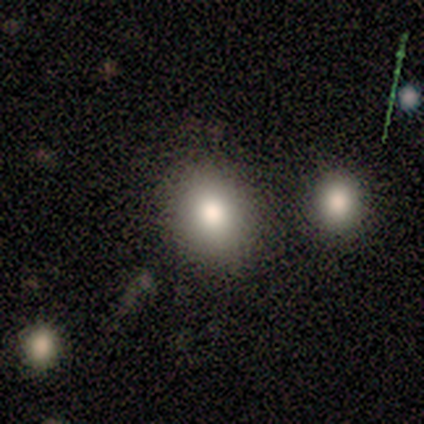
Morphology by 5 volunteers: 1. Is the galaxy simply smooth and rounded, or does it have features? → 80% smooth, 20% star or artifact, 0% featured or disk.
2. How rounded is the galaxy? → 75% in between, 25% round, 0% cigar-shaped.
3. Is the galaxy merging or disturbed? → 75% none, 25% minor disturbance, 0% major disturbance, 0% merger.